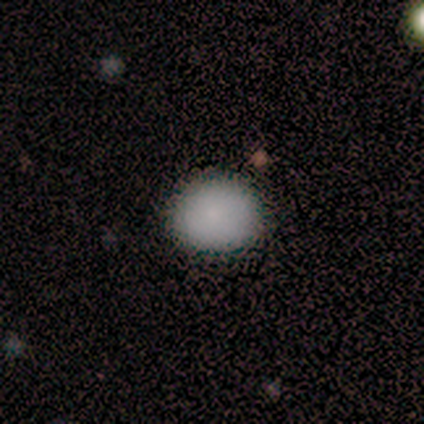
A smooth galaxy with no disk features (100%) that is round (100%).

Vote fractions:
- Smooth or featured? smooth: 100% / featured or disk: 0% / star or artifact: 0%
- How rounded? round: 100% / in between: 0% / cigar-shaped: 0%
- Merging? none: 100% / minor disturbance: 0% / major disturbance: 0% / merger: 0%